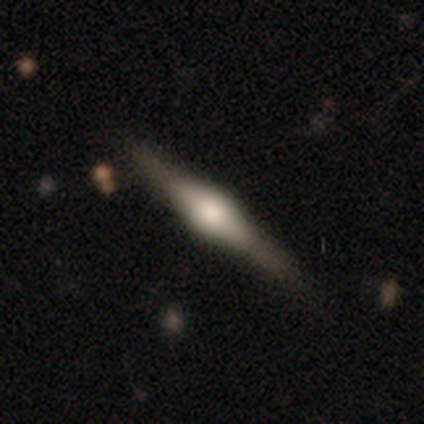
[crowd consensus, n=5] featured or disk 80%, smooth 20%, star or artifact 0%. Down the decision tree: edge-on disk — yes (100%); edge-on bulge — rounded (75%); merging — none (60%).